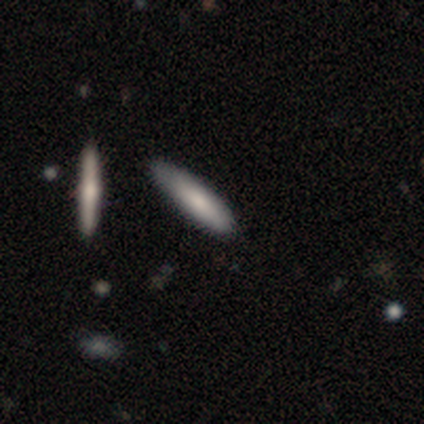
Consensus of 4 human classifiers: This is clearly a smooth galaxy (100%). How rounded: likely cigar-shaped (75%). Merging: possibly none (50%).